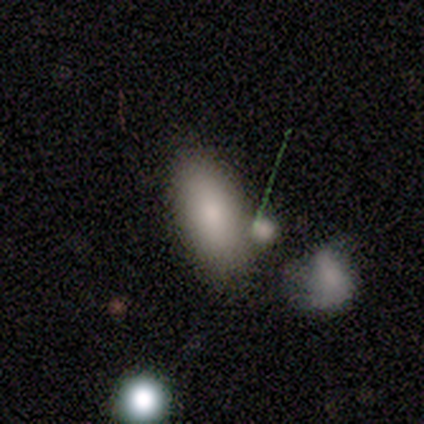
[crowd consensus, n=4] A smooth galaxy with no disk features (50%) that is in between round and cigar-shaped (50%, tied with cigar-shaped).

Vote fractions:
- Smooth or featured? smooth: 50% / featured or disk: 25% / star or artifact: 25%
- How rounded? in between: 50% (tied) / cigar-shaped: 50% (tied) / round: 0%
- Merging? minor disturbance: 67% / major disturbance: 33% / none: 0% / merger: 0%